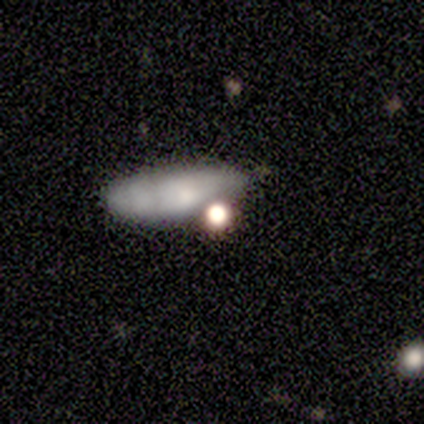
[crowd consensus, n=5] smooth 80%, star or artifact 20%, featured or disk 0%. Down the decision tree: how rounded — cigar-shaped (50%); merging — major disturbance (50%).